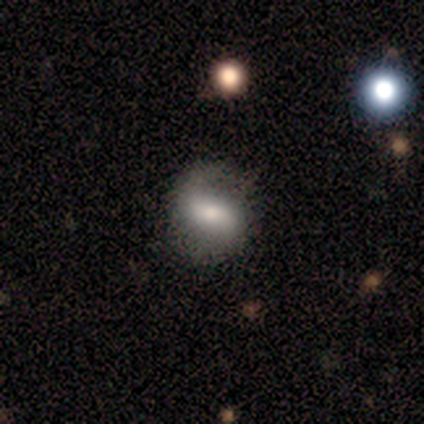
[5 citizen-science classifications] Smooth or featured?
  - smooth: 60% *
  - featured or disk: 40%
  - star or artifact: 0%
How rounded?
  - in between: 100% *
  - round: 0%
  - cigar-shaped: 0%
Merging?
  - none: 40% * (tied)
  - minor disturbance: 40% * (tied)
  - major disturbance: 20%
  - merger: 0%